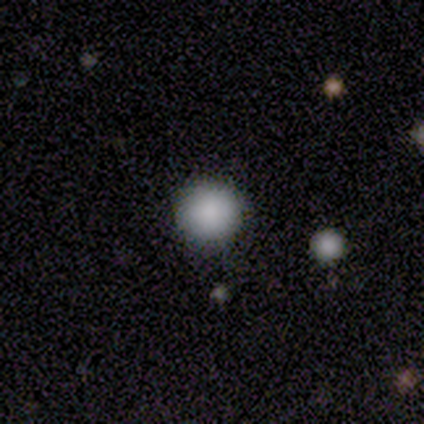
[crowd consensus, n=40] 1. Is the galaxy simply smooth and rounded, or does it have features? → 88% smooth, 12% star or artifact, 0% featured or disk.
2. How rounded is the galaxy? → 94% round, 6% in between, 0% cigar-shaped.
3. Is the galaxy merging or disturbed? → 91% none, 6% minor disturbance, 3% merger, 0% major disturbance.